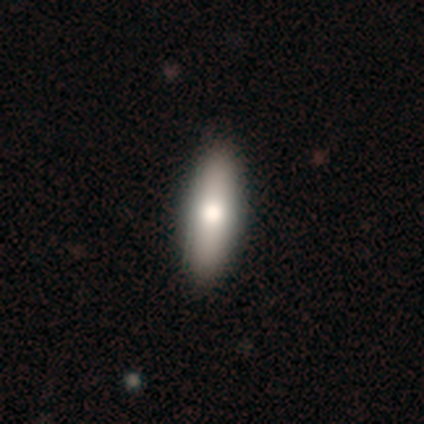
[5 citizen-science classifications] smooth-or-featured: smooth: 80% | featured or disk: 20% | star or artifact: 0%
  how-rounded: in between: 100% | round: 0% | cigar-shaped: 0%
  merging: none: 100% | minor disturbance: 0% | major disturbance: 0% | merger: 0%